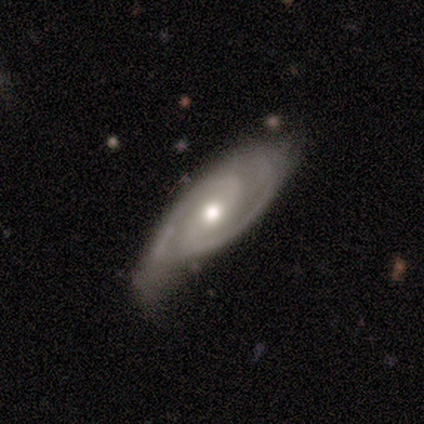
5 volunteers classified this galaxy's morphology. Q: Smooth or featured?
A: featured or disk (80%); runner-up: smooth (20%)
Q: Edge-on disk?
A: no (75%); runner-up: yes (25%)
Q: Bar?
A: no (100%)
Q: Spiral arms?
A: yes (100%)
Q: Spiral winding?
A: tight (67%); runner-up: medium (33%)
Q: Spiral arm count?
A: 2 (100%)
Q: Bulge size?
A: moderate (67%); runner-up: small (33%)
Q: Merging?
A: none (60%); runner-up: minor disturbance (40%)